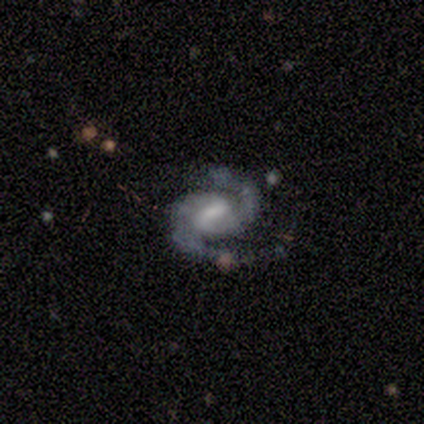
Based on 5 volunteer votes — Volunteers were most divided on "bar": weak: 75%, strong: 25%, no: 0%. More confident: smooth or featured — featured or disk (100%); spiral arms — yes (100%); spiral arm count — 2 (100%); merging — none (100%); edge-on disk — no (80%); spiral winding — medium (75%); bulge size — moderate (75%).